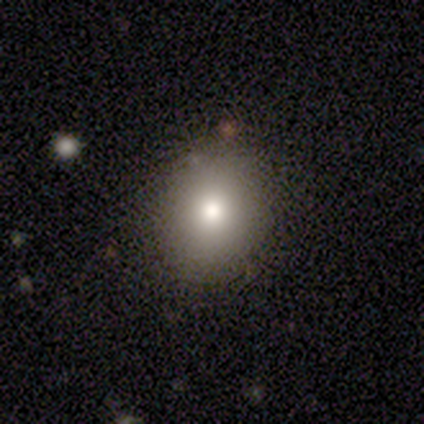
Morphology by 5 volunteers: This appears to be a smooth galaxy with no disk features (80%) that is round (50%, tied with in between). Merging: none (80%).